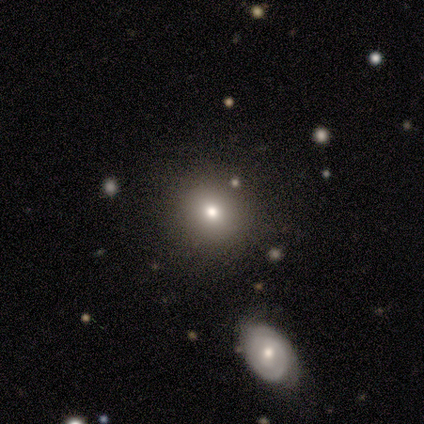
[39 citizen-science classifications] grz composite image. It shows a smooth galaxy with no disk features (77%) that is round (87%). Merging: none (71%).